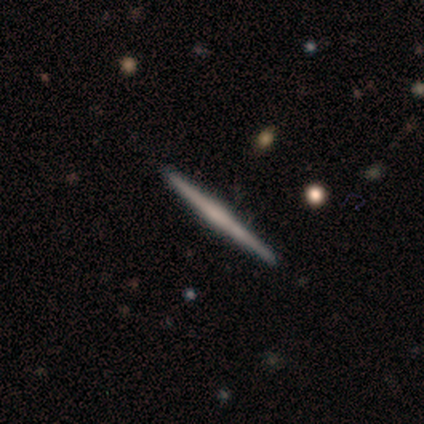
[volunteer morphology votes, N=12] Smooth or featured? 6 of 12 (50%, tied with featured or disk) said smooth. How rounded? 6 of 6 (100%) said cigar-shaped. Merging? 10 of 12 (83%) said none.